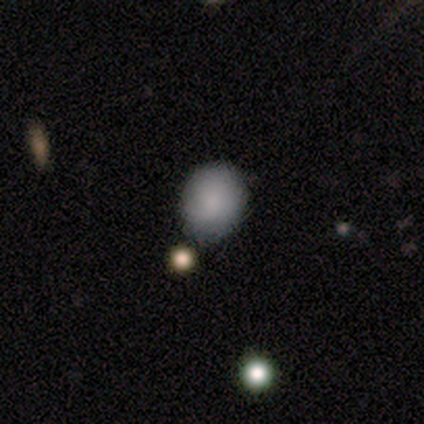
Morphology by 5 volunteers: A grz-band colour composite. It shows a smooth galaxy with no disk features (100%) that is round (60%). Merging: none (80%).